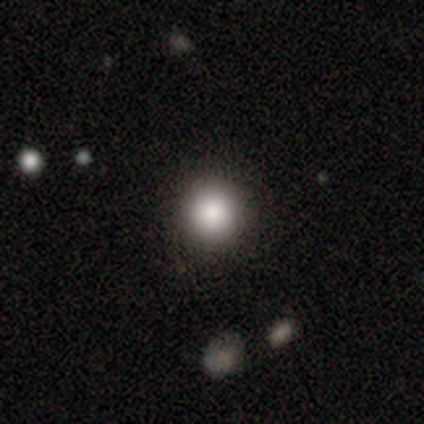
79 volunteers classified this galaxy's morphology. Smooth or featured?
  - smooth: 84% *
  - star or artifact: 13%
  - featured or disk: 4%
How rounded?
  - round: 97% *
  - in between: 3%
  - cigar-shaped: 0%
Merging?
  - none: 49% *
  - minor disturbance: 7%
  - major disturbance: 0%
  - merger: 0%